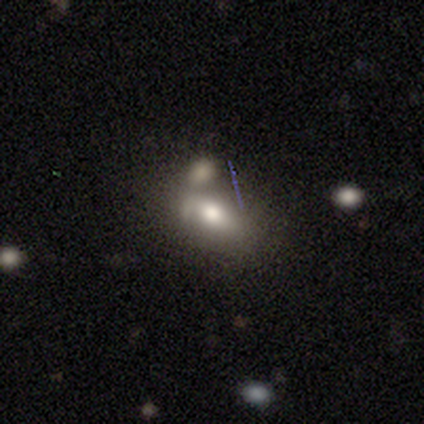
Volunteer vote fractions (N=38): Q: Smooth or featured?
A: smooth (58%); runner-up: featured or disk (39%)
Q: How rounded?
A: in between (86%); runner-up: cigar-shaped (9%)
Q: Merging?
A: merger (51%); runner-up: minor disturbance (22%)